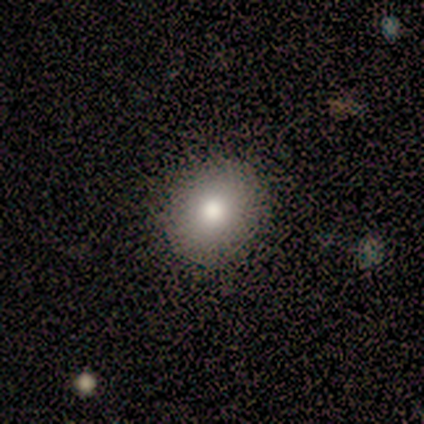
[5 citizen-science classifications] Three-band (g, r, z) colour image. It shows a smooth galaxy with no disk features (100%) that is round (100%). Merging: none (80%).